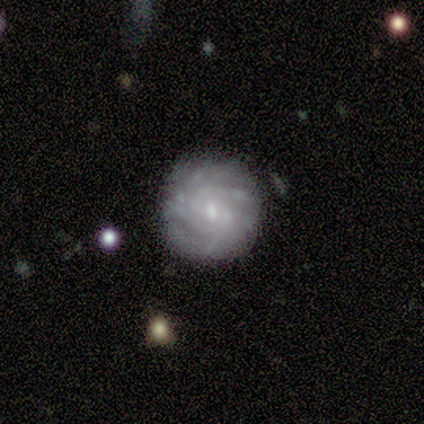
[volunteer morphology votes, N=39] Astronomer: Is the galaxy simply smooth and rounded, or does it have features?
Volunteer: featured or disk — 79%.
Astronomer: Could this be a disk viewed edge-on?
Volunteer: no — 100%.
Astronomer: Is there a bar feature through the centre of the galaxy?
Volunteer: no — 61% (runner-up: weak, 39%).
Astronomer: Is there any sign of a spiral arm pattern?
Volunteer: yes — 94%.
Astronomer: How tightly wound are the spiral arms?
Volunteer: tight — 76%.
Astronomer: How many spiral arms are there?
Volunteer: can't tell — 45% (runner-up: more than 4, 28%).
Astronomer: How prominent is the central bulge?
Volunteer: small — 71%.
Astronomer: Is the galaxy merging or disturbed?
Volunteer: none — 89%.